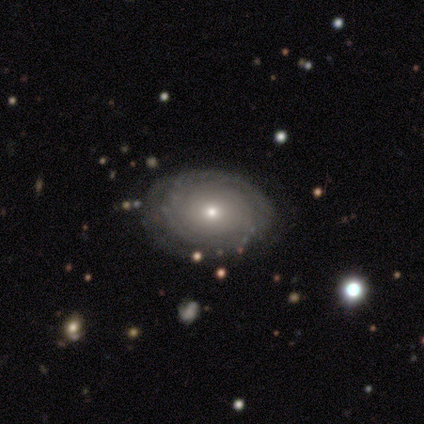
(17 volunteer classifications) Q: Smooth or featured?
A: featured or disk (82%); runner-up: smooth (18%)
Q: Edge-on disk?
A: no (93%); runner-up: yes (7%)
Q: Bar?
A: no (100%)
Q: Spiral arms?
A: yes (69%); runner-up: no (31%)
Q: Spiral winding?
A: tight (78%); runner-up: medium (11%)
Q: Spiral arm count?
A: can't tell (67%); runner-up: 4 (22%)
Q: Bulge size?
A: small (85%); runner-up: moderate (15%)
Q: Merging?
A: none (76%); runner-up: minor disturbance (12%)